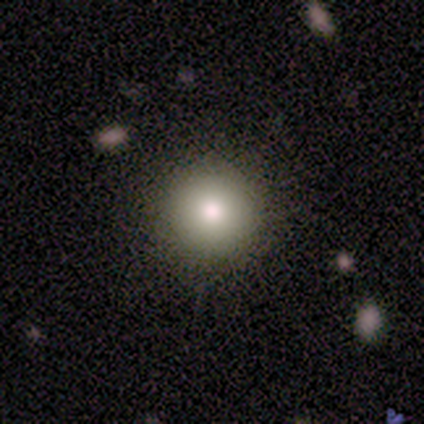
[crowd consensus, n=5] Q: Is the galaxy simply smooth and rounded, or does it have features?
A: smooth — 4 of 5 (80%).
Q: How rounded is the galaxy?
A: round — 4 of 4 (100%).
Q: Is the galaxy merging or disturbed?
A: none — 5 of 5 (100%).